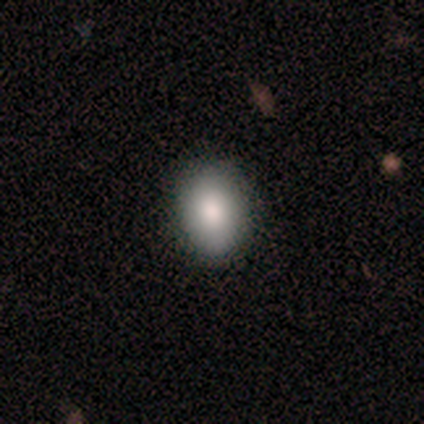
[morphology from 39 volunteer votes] Volunteers were most divided on "smooth or featured": smooth: 79%, featured or disk: 13%, star or artifact: 8%. More confident: merging — none (94%); how rounded — in between (94%).